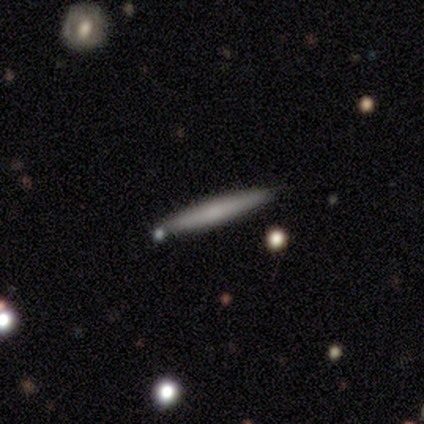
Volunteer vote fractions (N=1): Smooth or featured? 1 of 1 (100%) said smooth. How rounded? 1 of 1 (100%) said cigar-shaped. Merging? 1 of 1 (100%) said none.